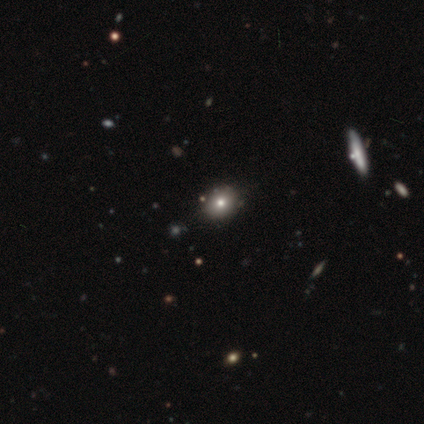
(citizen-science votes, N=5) smooth_or_featured: smooth (p=0.60) [alt: featured or disk p=0.20]
how_rounded: round (p=1.00)
merging: none (p=0.50) [tied with: minor disturbance p=0.50]